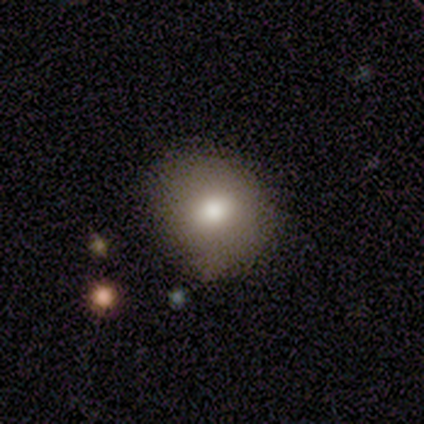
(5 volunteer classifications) smooth_or_featured: smooth (p=0.80) [alt: star or artifact p=0.20]
how_rounded: round (p=0.75) [alt: in between p=0.25]
merging: none (p=1.00)